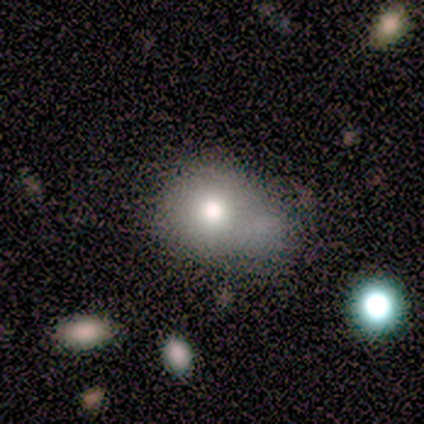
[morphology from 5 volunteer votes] A smooth galaxy with no disk features (100%) that is in between round and cigar-shaped (60%).

Vote fractions:
- Smooth or featured? smooth: 100% / featured or disk: 0% / star or artifact: 0%
- How rounded? in between: 60% / round: 40% / cigar-shaped: 0%
- Merging? none: 40% (tied) / merger: 40% (tied) / minor disturbance: 20% / major disturbance: 0%